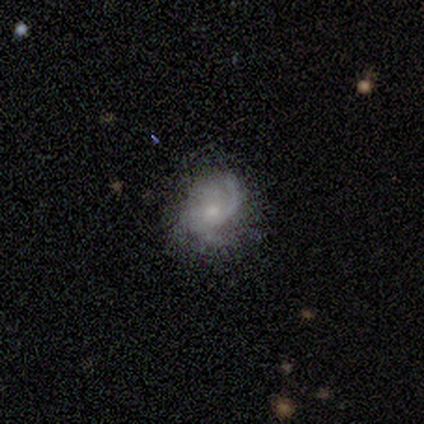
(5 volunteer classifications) smooth_or_featured: featured or disk (p=0.80) [alt: star or artifact p=0.20]
disk_edge_on: no (p=1.00)
bar: weak (p=0.50) [tied with: no p=0.50]
has_spiral_arms: yes (p=0.75) [alt: no p=0.25]
spiral_winding: loose (p=0.67) [alt: medium p=0.33]
spiral_arm_count: 1 (p=0.67) [alt: 2 p=0.33]
bulge_size: small (p=1.00)
merging: none (p=1.00)